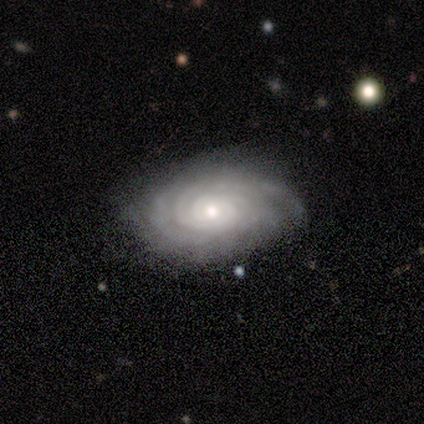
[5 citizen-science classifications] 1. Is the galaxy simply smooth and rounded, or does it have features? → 100% featured or disk, 0% smooth, 0% star or artifact.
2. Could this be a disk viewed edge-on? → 100% no, 0% yes.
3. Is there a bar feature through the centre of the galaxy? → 100% no, 0% strong, 0% weak.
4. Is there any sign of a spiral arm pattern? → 100% yes, 0% no.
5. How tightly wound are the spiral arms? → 80% tight, 20% medium, 0% loose.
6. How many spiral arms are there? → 40% can't tell, 20% 2, 20% 3, 20% more than 4, 0% 1, 0% 4.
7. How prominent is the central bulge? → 40% moderate (tied), 40% small (tied), 20% large, 0% dominant, 0% none.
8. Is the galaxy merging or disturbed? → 40% none (tied), 40% minor disturbance (tied), 20% major disturbance, 0% merger.